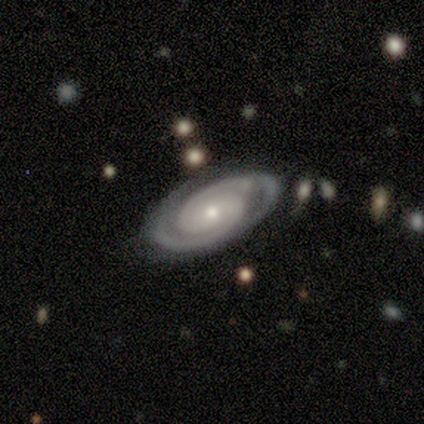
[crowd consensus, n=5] Smooth or featured? featured or disk (80%)
Edge-on disk? no (100%)
Bar? no (50%)
Spiral arms? yes (100%)
Spiral winding? tight (100%)
Spiral arm count? 2 (100%)
Bulge size? small (75%)
Merging? none (100%)